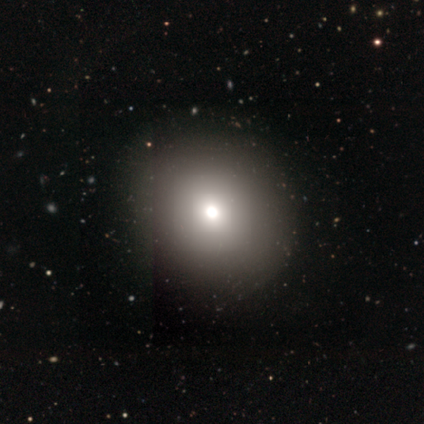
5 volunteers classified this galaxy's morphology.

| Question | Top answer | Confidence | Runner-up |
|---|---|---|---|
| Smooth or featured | smooth | 60% | star or artifact (40%) |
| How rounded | round | 67% | in between (33%) |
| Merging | none | 100% | — |